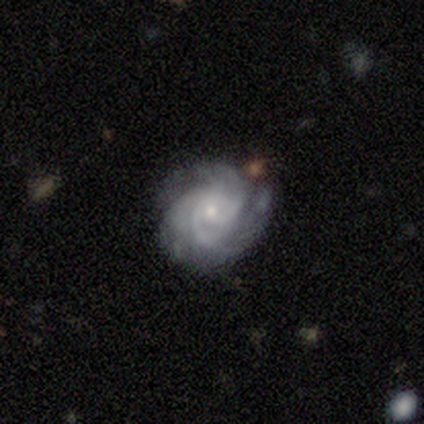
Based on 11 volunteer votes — Smooth or featured: featured or disk — 91% (smooth — 9%)
Edge-on disk: no — 100%
Bar: no — 70% (strong — 20%)
Spiral arms: yes — 100%
Spiral winding: tight — 60% (medium — 40%)
Spiral arm count: 3 — 40% (4 — 30%)
Bulge size: small — 70% (moderate — 30%)
Merging: none — 55% (minor disturbance — 27%)